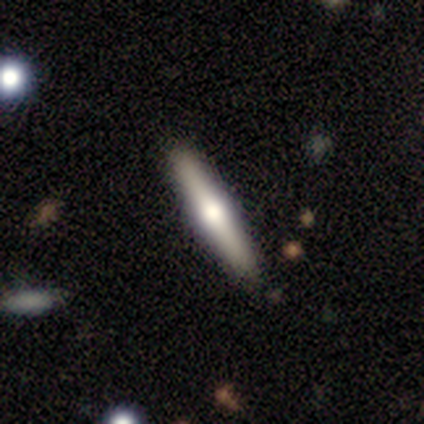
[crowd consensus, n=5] This is clearly a smooth galaxy (80%). How rounded: clearly cigar-shaped (100%). Merging: clearly none (100%).